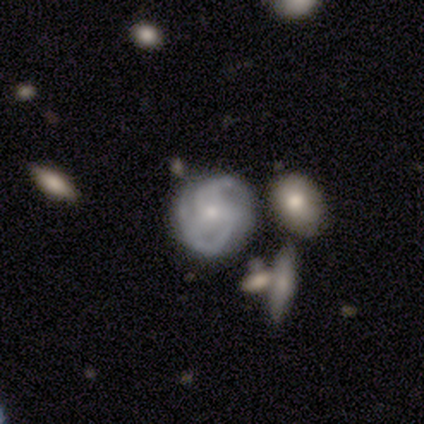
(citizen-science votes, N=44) featured or disk 84%, star or artifact 14%, smooth 2%. Down the decision tree: edge-on disk — no (95%); bar — no (83%); spiral arms — yes (97%); spiral arm count — 3 (35%); spiral winding — tight (44%, tied with medium); bulge size — small (69%); merging — none (47%).